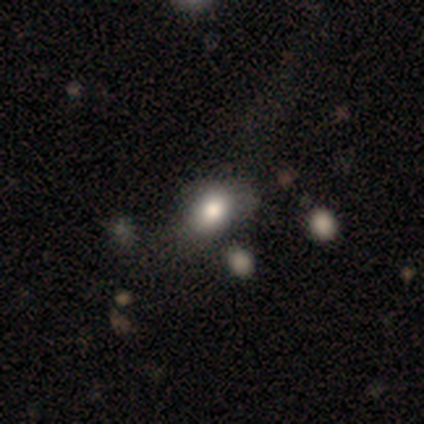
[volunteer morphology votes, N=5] Smooth or featured: smooth — 100%
How rounded: in between — 60% (round — 40%)
Merging: none — 60% (minor disturbance — 20%)